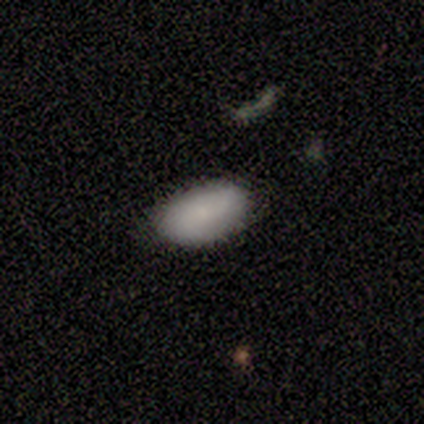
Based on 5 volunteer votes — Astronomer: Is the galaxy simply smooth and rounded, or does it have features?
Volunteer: smooth — 60% (runner-up: featured or disk, 40%).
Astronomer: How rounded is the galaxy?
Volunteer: in between — 67%.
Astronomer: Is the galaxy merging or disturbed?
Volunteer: none — 60% (runner-up: minor disturbance, 40%).